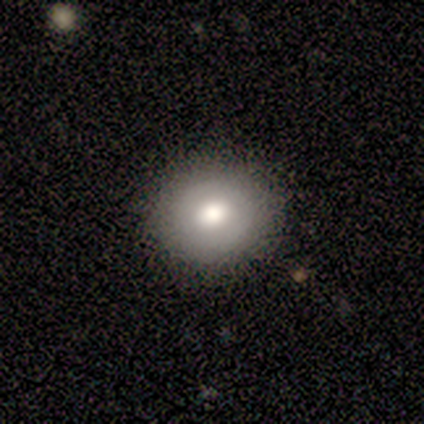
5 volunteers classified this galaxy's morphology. Overall: smooth (100%). How rounded: round (60%; in between 40%). Merging: none (100%).